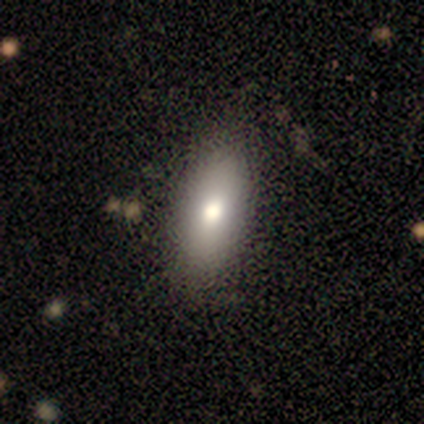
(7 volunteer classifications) Smooth or featured? smooth (86%)
How rounded? in between (83%)
Merging? none (71%)